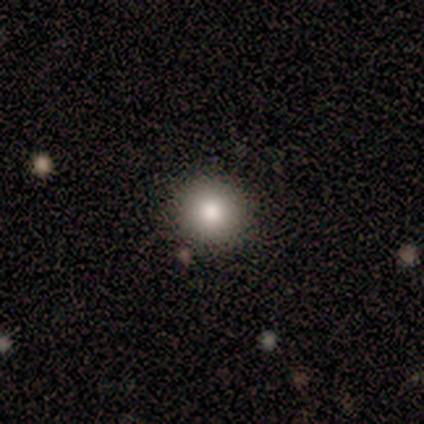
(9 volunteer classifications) smooth_or_featured: smooth (p=0.78) [alt: featured or disk p=0.11]
how_rounded: round (p=0.86) [alt: in between p=0.14]
merging: none (p=0.75) [alt: minor disturbance p=0.25]